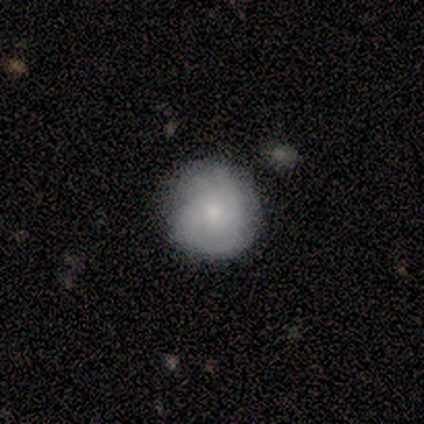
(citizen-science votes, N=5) smooth-or-featured: featured or disk: 60% | smooth: 40% | star or artifact: 0%
  disk-edge-on: no: 100% | yes: 0%
    bar: no: 100% | strong: 0% | weak: 0%
    has-spiral-arms: yes: 100% | no: 0%
      spiral-winding: medium: 67% | tight: 33% | loose: 0%
      spiral-arm-count: 2: 33% (tied) | 3: 33% (tied) | can't tell: 33% (tied) | 1: 0% | 4: 0% | more than 4: 0%
    bulge-size: moderate: 67% | large: 33% | dominant: 0% | small: 0% | none: 0%
  merging: none: 100% | minor disturbance: 0% | major disturbance: 0% | merger: 0%